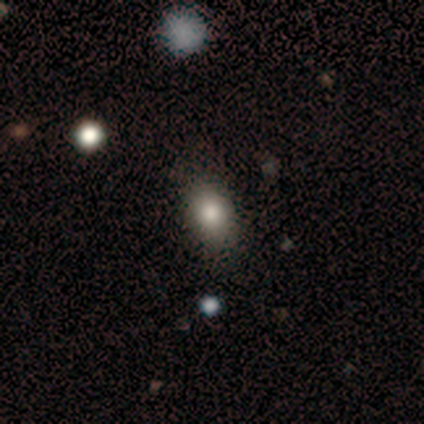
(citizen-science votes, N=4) Overall: smooth (75%). How rounded: in between (100%). Merging: none (33%, tied with minor disturbance and major disturbance).